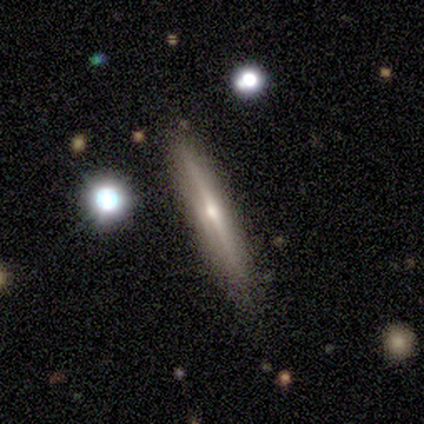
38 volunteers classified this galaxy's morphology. featured or disk 82%, smooth 16%, star or artifact 3%. Down the decision tree: edge-on disk — yes (100%); edge-on bulge — rounded (77%); merging — none (76%).